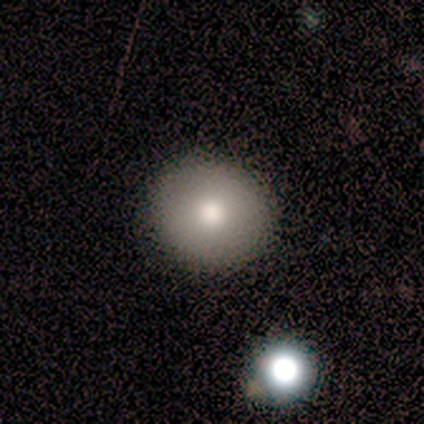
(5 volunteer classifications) This appears to be a smooth galaxy with no disk features (80%) that is round (100%). Merging: none (100%).